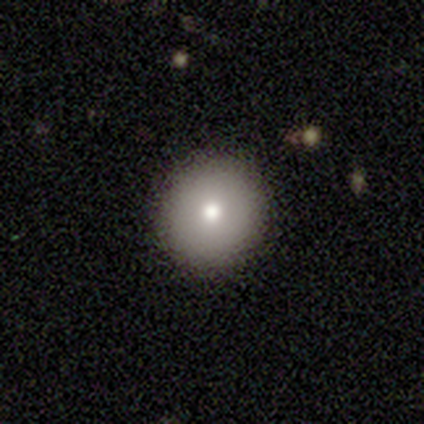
Smooth or featured?
  - smooth: 72% *
  - featured or disk: 23%
  - star or artifact: 5%
How rounded?
  - round: 96% *
  - in between: 4%
  - cigar-shaped: 0%
Merging?
  - none: 95% *
  - major disturbance: 3%
  - merger: 3%
  - minor disturbance: 0%